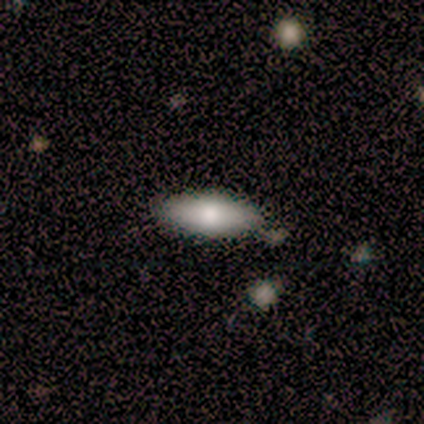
Smooth or featured? smooth (80%)
How rounded? in between (75%)
Merging? none (80%)